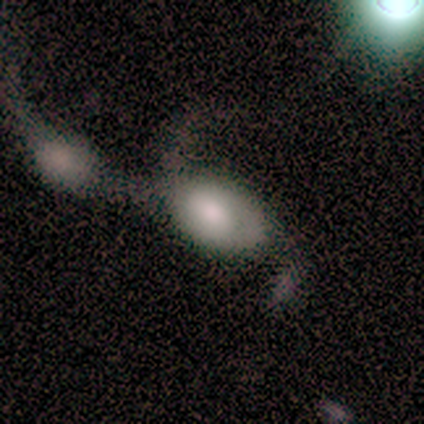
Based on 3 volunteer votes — Smooth or featured? 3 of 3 (100%) said featured or disk. Edge-on disk? 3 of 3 (100%) said no. Bar? 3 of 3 (100%) said no. Spiral arms? 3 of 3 (100%) said yes. Spiral winding? 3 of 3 (100%) said loose. Spiral arm count? 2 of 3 (67%) said 2. Bulge size? 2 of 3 (67%) said large. Merging? 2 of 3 (67%) said merger.